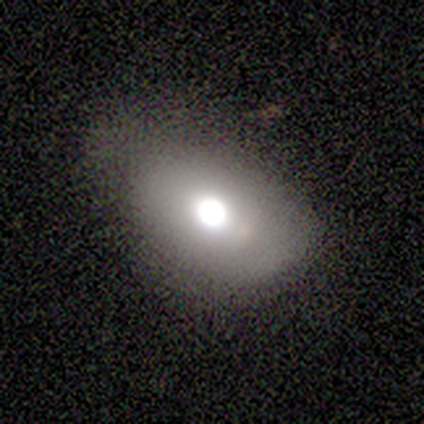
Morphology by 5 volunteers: This appears to be a smooth galaxy with no disk features (40%, tied with featured or disk) that is round (100%). Merging: minor disturbance (100%).